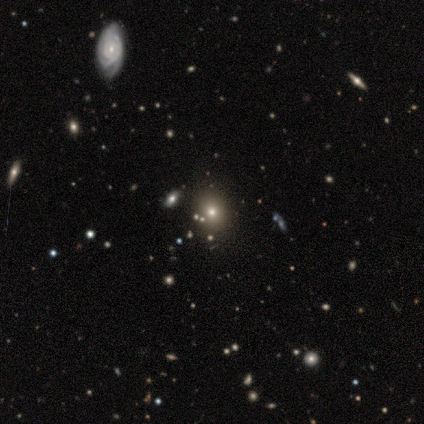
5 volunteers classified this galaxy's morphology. Volunteers were most divided on "how rounded": round: 67%, in between: 33%, cigar-shaped: 0%. More confident: merging — none (100%); smooth or featured — smooth (60%).